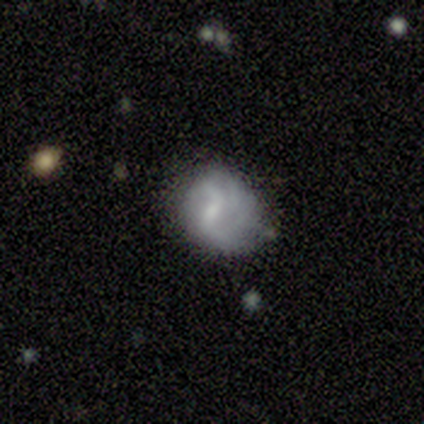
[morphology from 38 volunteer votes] Smooth or featured? featured or disk (55%)
Edge-on disk? no (100%)
Bar? weak (76%)
Spiral arms? yes (62%)
Spiral winding? loose (62%)
Spiral arm count? can't tell (38%)
Bulge size? small (48%)
Merging? minor disturbance (43%)